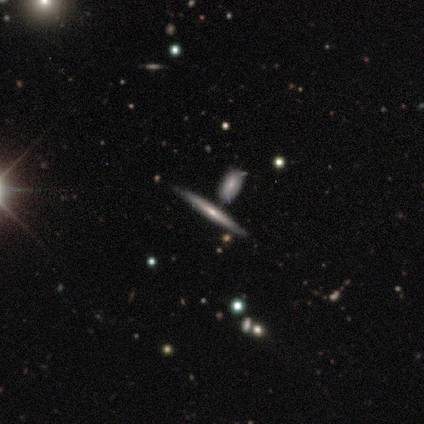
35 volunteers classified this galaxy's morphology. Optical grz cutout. It shows a featured or disk galaxy (57%) viewed edge-on (90%) with no central bulge (56%). Merging: none (69%).